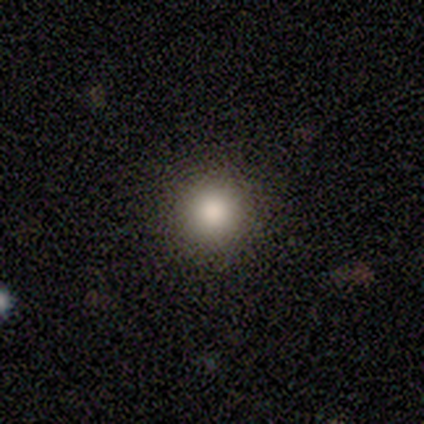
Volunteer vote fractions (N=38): Smooth or featured? 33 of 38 (87%) said smooth. How rounded? 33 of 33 (100%) said round. Merging? 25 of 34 (74%) said none.